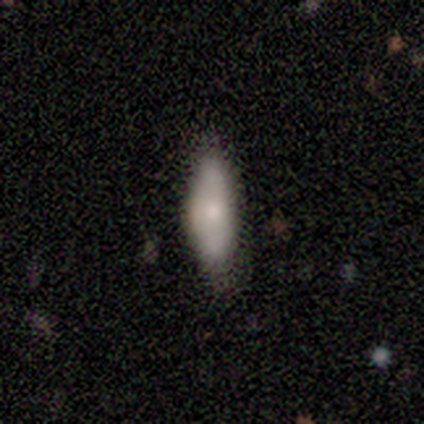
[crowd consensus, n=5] Smooth or featured?
  - smooth: 60% *
  - featured or disk: 40%
  - star or artifact: 0%
How rounded?
  - in between: 100% *
  - round: 0%
  - cigar-shaped: 0%
Merging?
  - none: 80% *
  - minor disturbance: 20%
  - major disturbance: 0%
  - merger: 0%